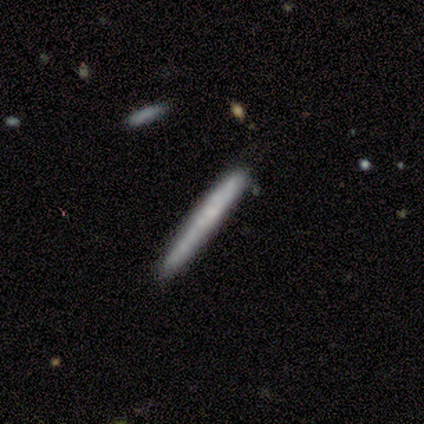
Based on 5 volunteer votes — Morphology: type=smooth (80%); roundness=cigar-shaped (100%); merging=none (80%).